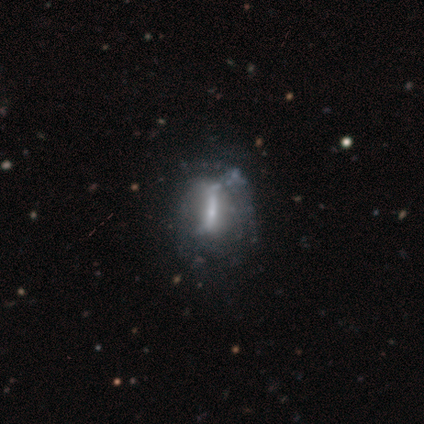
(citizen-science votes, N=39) Smooth or featured? 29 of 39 (74%) said featured or disk. Edge-on disk? 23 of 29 (79%) said no. Bar? 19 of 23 (83%) said strong. Spiral arms? 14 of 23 (61%) said no. Bulge size? 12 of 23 (52%) said small. Merging? 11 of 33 (33%) said none.